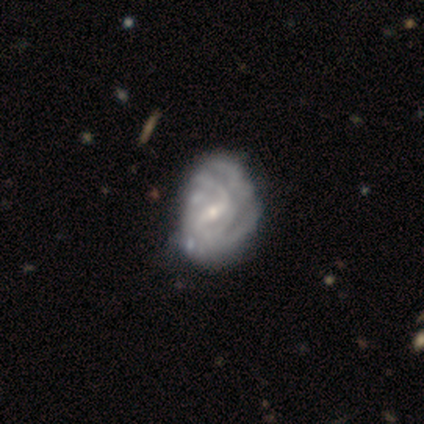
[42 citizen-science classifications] smooth_or_featured: featured or disk (p=0.90) [alt: smooth p=0.05]
disk_edge_on: no (p=1.00)
bar: weak (p=0.61) [alt: strong p=0.29]
has_spiral_arms: yes (p=0.87) [alt: no p=0.13]
spiral_winding: tight (p=0.55) [alt: medium p=0.30]
spiral_arm_count: can't tell (p=0.52) [alt: 2 p=0.24]
bulge_size: small (p=0.63) [alt: moderate p=0.37]
merging: minor disturbance (p=0.40) [alt: major disturbance p=0.28]